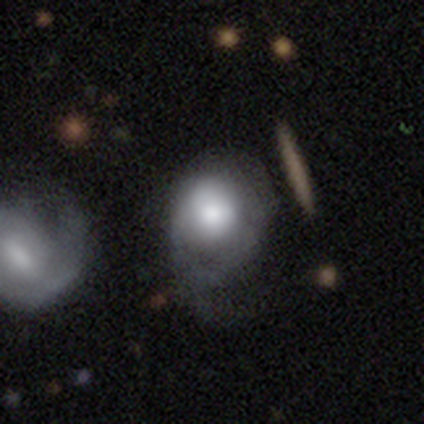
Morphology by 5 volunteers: Smooth or featured: smooth — 80% (featured or disk — 20%)
How rounded: round — 50% (tied with in between — 50%)
Merging: minor disturbance — 60% (none — 20%)